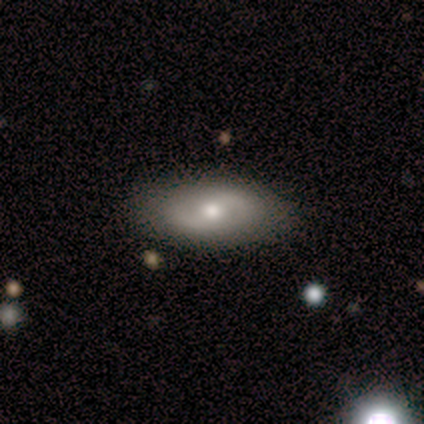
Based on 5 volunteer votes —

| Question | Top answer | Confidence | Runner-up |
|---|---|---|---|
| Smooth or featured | featured or disk | 60% | smooth (40%) |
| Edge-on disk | no | 100% | — |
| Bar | weak | 67% | no (33%) |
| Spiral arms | yes | 67% | no (33%) |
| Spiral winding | medium | 100% | — |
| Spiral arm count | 2 | 100% | — |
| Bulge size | small | 67% | moderate (33%) |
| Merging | none | 80% | major disturbance (20%) |